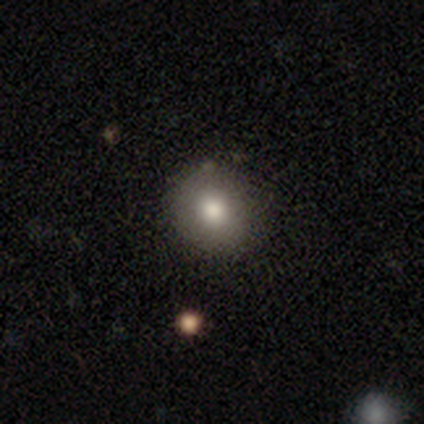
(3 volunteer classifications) Smooth or featured? smooth (67%)
How rounded? round (100%)
Merging? none (67%)